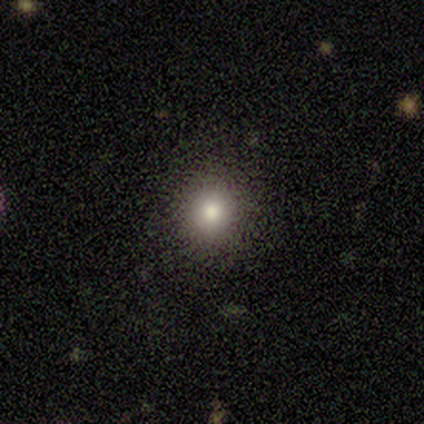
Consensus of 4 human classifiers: Q: Smooth or featured?
A: smooth (100%)
Q: How rounded?
A: round (100%)
Q: Merging?
A: none (100%)